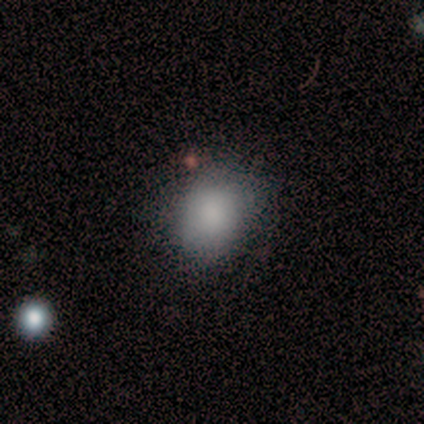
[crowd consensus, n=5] This appears to be a star or artifact, not a galaxy (60%).